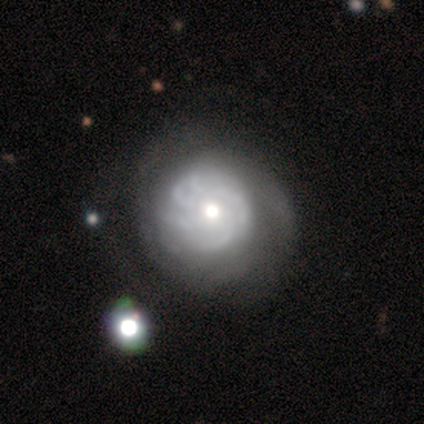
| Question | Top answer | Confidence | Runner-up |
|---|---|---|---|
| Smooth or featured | featured or disk | 80% | star or artifact (13%) |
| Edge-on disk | no | 100% | — |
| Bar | no | 83% | weak (17%) |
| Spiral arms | yes | 100% | — |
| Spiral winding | tight | 58% | medium (33%) |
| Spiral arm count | more than 4 | 42% | tied: can't tell (42%) |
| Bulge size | moderate | 75% | small (25%) |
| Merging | none | 77% | minor disturbance (15%) |